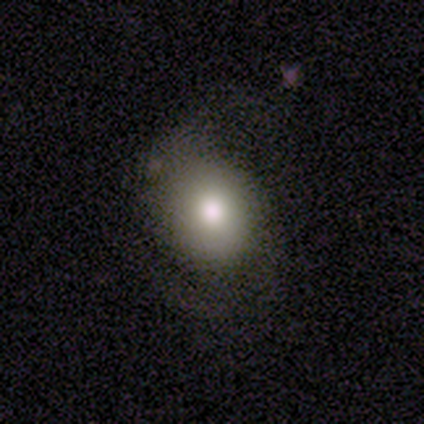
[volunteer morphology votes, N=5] type=smooth (60%); roundness=round (100%); merging=none (33%, tied with minor disturbance and major disturbance).